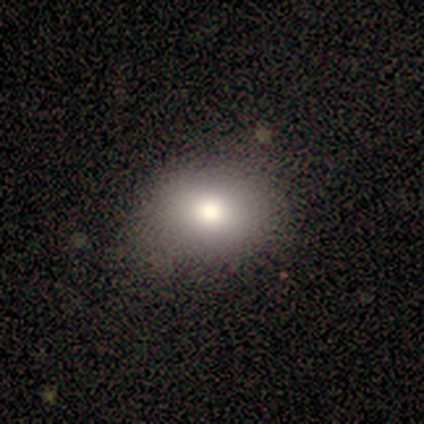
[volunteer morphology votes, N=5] Volunteers were most divided on "how rounded": in between: 75%, round: 25%, cigar-shaped: 0%. More confident: smooth or featured — smooth (80%); merging — none (80%).